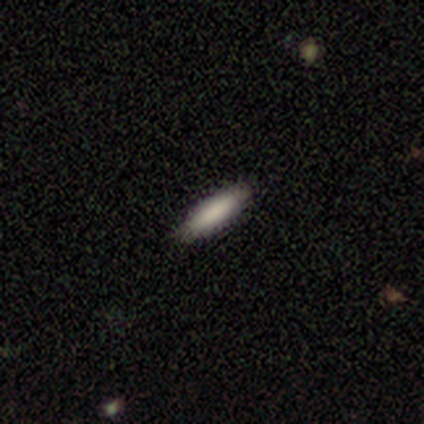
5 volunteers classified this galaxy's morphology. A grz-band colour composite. It shows a smooth galaxy with no disk features (80%) that is cigar-shaped (100%). Merging: none (100%).